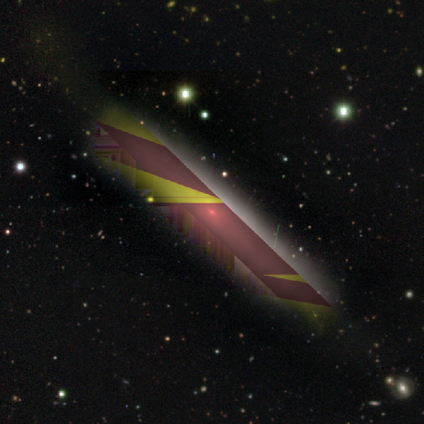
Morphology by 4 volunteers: type=smooth (50%, tied with star or artifact); roundness=cigar-shaped (100%); merging=none (100%).